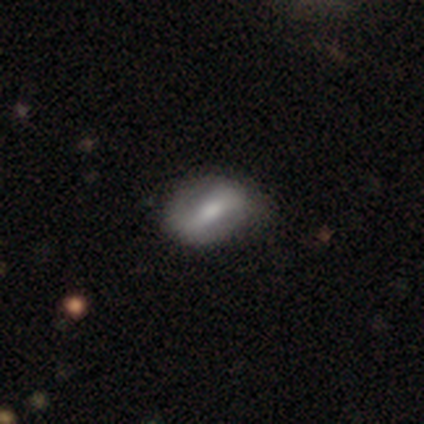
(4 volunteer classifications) Smooth or featured? 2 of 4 (50%, tied with featured or disk) said smooth. How rounded? 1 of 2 (50%, tied with in between) said round. Merging? 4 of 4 (100%) said none.